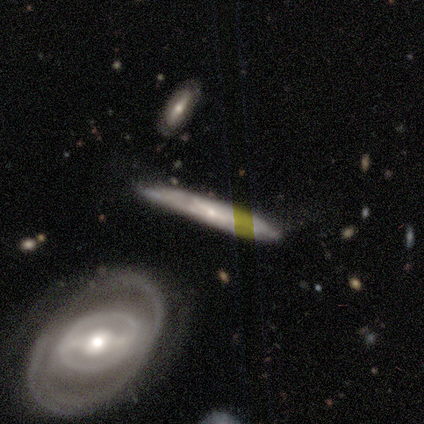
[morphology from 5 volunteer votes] Smooth or featured?
  - featured or disk: 60% *
  - smooth: 40%
  - star or artifact: 0%
Edge-on disk?
  - yes: 67% *
  - no: 33%
Edge-on bulge?
  - none: 50% * (tied)
  - rounded: 50% * (tied)
  - boxy: 0%
Merging?
  - none: 80% *
  - minor disturbance: 20%
  - major disturbance: 0%
  - merger: 0%